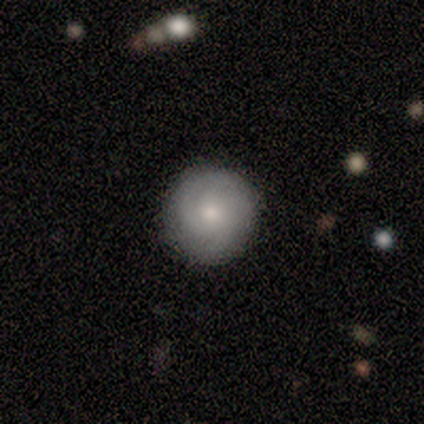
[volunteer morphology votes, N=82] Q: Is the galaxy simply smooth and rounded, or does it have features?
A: smooth — 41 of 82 (50%).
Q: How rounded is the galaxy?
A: round — 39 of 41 (95%).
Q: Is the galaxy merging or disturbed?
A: none — 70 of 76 (92%).